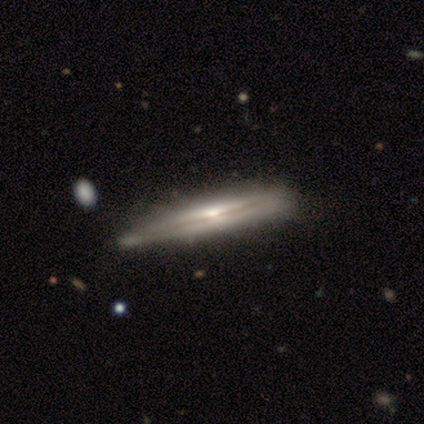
Morphology: type=featured or disk (100%); edge-on=yes (100%); edge-on bulge=rounded (50%); merging=none (75%).